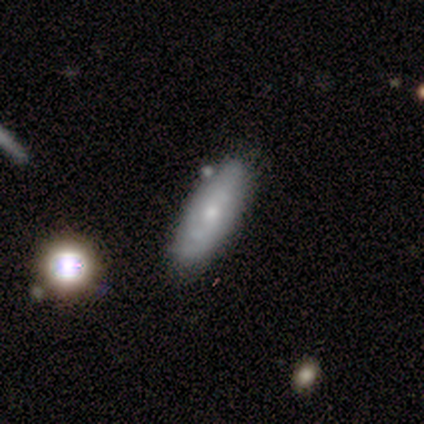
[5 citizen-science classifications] Smooth or featured: featured or disk — 60% (smooth — 40%)
Edge-on disk: no — 100%
Bar: no — 100%
Spiral arms: no — 67% (yes — 33%)
Bulge size: moderate — 33% (tied with small — 33%; none — 33%)
Merging: minor disturbance — 60% (none — 40%)